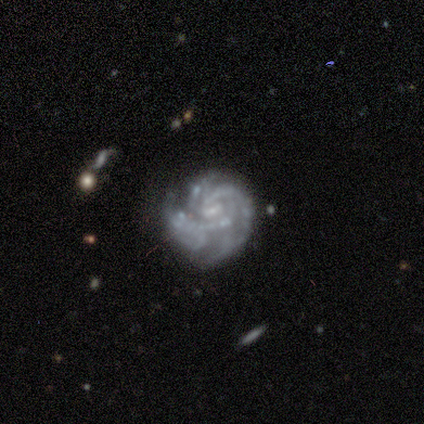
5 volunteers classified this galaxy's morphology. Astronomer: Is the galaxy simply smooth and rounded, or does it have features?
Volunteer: featured or disk — 60% (runner-up: smooth, 40%).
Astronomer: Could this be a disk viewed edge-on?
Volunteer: no — 100%.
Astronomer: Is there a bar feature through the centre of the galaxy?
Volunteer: no — 100%.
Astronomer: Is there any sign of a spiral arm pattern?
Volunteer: yes — 100%.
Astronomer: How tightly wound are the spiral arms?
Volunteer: medium — 67%.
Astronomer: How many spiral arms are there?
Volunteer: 3 — 67%.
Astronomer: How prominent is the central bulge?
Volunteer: small — 67%.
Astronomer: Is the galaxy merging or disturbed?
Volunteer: none — 60%.